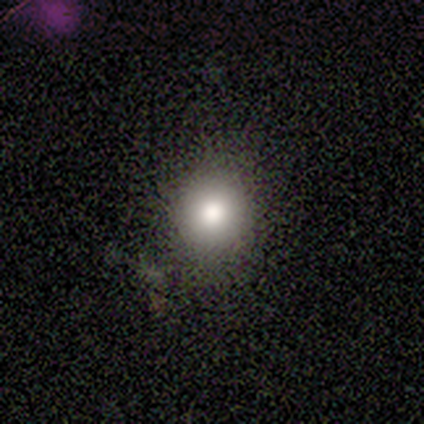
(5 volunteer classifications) A smooth galaxy with no disk features (80%) that is round (75%).

Vote fractions:
- Smooth or featured? smooth: 80% / star or artifact: 20% / featured or disk: 0%
- How rounded? round: 75% / in between: 25% / cigar-shaped: 0%
- Merging? none: 50% (tied) / minor disturbance: 50% (tied) / major disturbance: 0% / merger: 0%